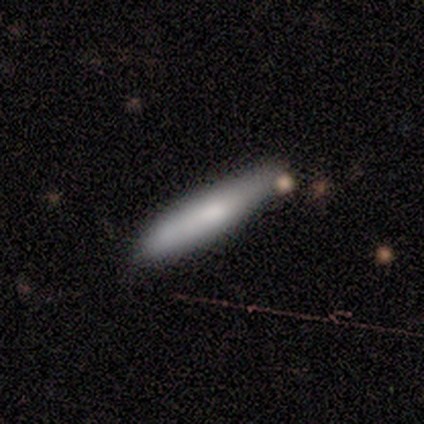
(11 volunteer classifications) smooth_or_featured: smooth (p=0.82) [alt: featured or disk p=0.18]
how_rounded: cigar-shaped (p=0.89) [alt: in between p=0.11]
merging: none (p=0.55) [alt: minor disturbance p=0.18]